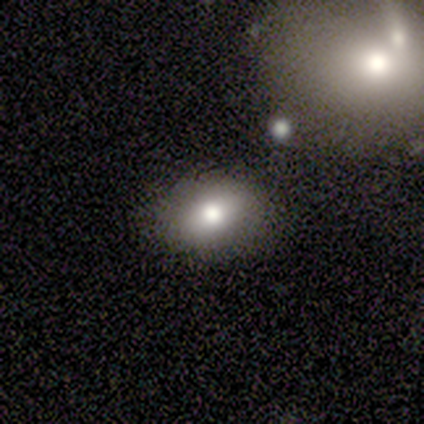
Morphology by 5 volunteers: A smooth galaxy with no disk features (80%) that is in between round and cigar-shaped (100%).

Vote fractions:
- Smooth or featured? smooth: 80% / featured or disk: 20% / star or artifact: 0%
- How rounded? in between: 100% / round: 0% / cigar-shaped: 0%
- Merging? none: 100% / minor disturbance: 0% / major disturbance: 0% / merger: 0%